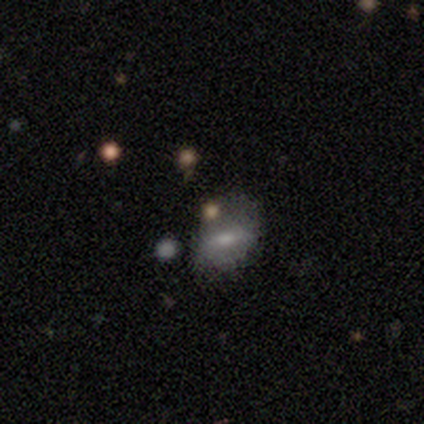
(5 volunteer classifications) Volunteers were most divided on "how rounded": in between: 75%, round: 25%, cigar-shaped: 0%. More confident: smooth or featured — smooth (80%); merging — none (75%).